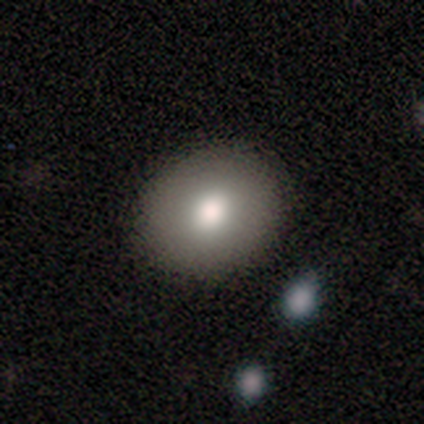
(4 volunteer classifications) Overall: smooth (100%). How rounded: round (50%, tied with in between). Merging: none (75%).